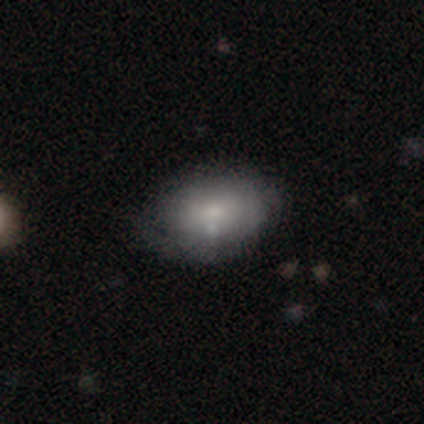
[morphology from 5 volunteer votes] smooth 100%, featured or disk 0%, star or artifact 0%. Down the decision tree: how rounded — in between (60%); merging — none (80%).